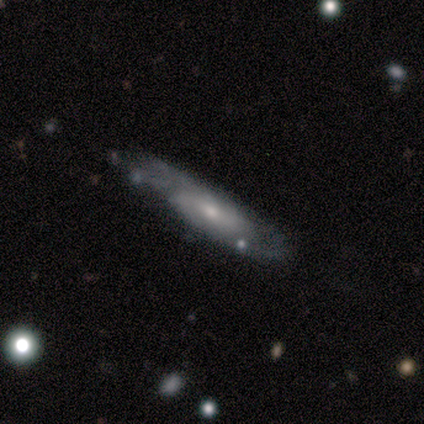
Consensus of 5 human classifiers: A smooth galaxy with no disk features (40%, tied with featured or disk) that is cigar-shaped (100%).

Vote fractions:
- Smooth or featured? smooth: 40% (tied) / featured or disk: 40% (tied) / star or artifact: 20%
- How rounded? cigar-shaped: 100% / round: 0% / in between: 0%
- Merging? none: 75% / minor disturbance: 25% / major disturbance: 0% / merger: 0%